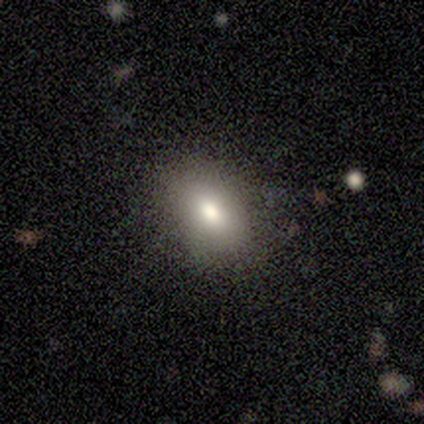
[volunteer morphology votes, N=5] Smooth or featured: smooth — 80% (featured or disk — 20%)
How rounded: round — 50% (tied with in between — 50%)
Merging: none — 60% (minor disturbance — 40%)